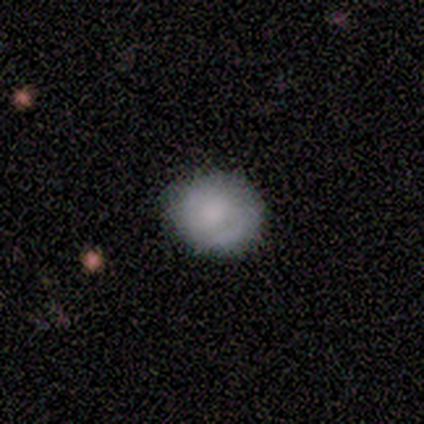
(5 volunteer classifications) Overall: smooth (100%). How rounded: round (60%; in between 40%). Merging: none (80%).